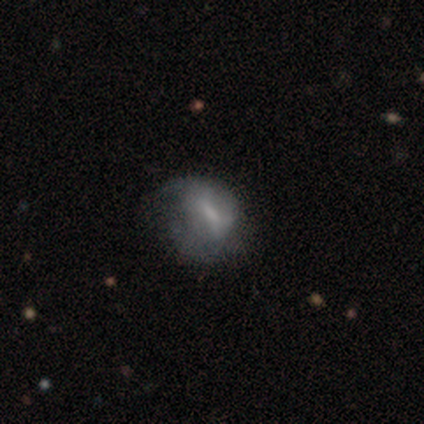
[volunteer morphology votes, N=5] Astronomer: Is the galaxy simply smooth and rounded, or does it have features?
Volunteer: featured or disk — 60% (runner-up: smooth, 40%).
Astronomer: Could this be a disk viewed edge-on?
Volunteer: no — 100%.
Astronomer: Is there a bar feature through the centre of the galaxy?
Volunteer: no — 67%.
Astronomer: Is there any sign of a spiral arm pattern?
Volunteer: no — 67%.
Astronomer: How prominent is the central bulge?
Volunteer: none — 67%.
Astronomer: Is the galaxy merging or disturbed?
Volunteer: none — 40%, tied with minor disturbance at 40%.